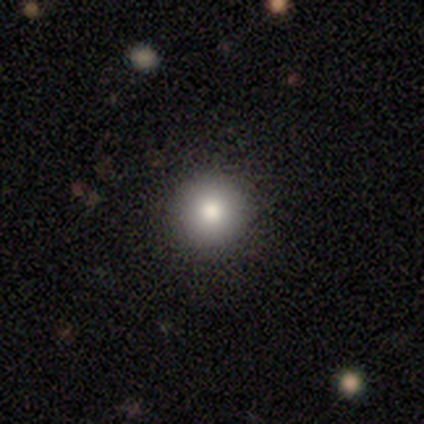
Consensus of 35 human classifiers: Overall: smooth (71%). How rounded: round (92%). Merging: none (82%).